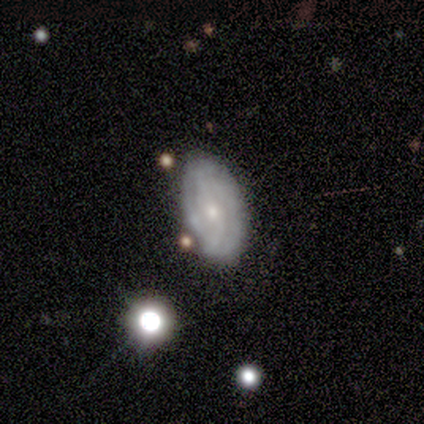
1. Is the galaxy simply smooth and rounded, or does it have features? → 76% featured or disk, 17% smooth, 7% star or artifact.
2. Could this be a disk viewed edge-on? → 96% no, 4% yes.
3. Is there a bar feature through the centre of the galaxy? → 54% no, 41% weak, 6% strong.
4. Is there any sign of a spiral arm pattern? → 81% yes, 19% no.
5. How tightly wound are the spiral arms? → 62% tight, 29% medium, 9% loose.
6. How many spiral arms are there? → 48% 2, 34% can't tell, 9% 3, 9% 4, 0% 1, 0% more than 4.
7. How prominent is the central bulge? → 70% small, 28% moderate, 1% large, 1% none, 0% dominant.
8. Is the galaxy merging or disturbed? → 59% none, 27% minor disturbance, 9% merger, 5% major disturbance.